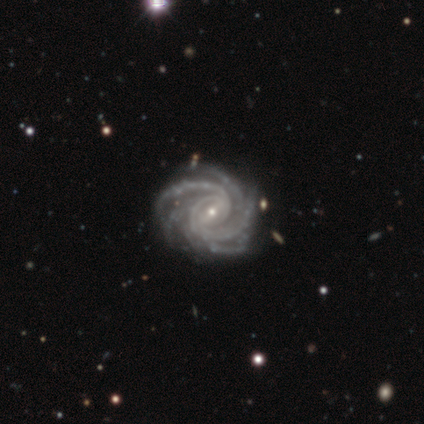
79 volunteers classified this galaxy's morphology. type=featured or disk (99%); edge-on=no (96%); bar=weak (52%); spiral arms=yes (100%); winding=tight (71%); arm count=more than 4 (45%); bulge=small (81%); merging=none (38%).